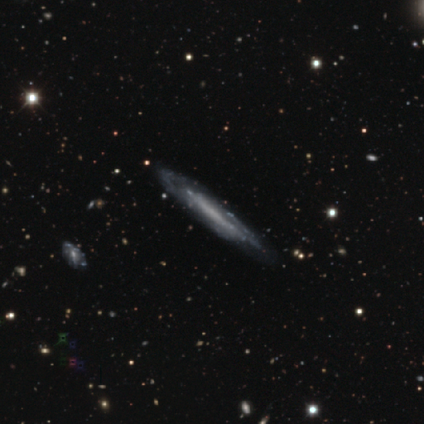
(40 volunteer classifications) Q: Smooth or featured?
A: featured or disk (72%); runner-up: star or artifact (18%)
Q: Edge-on disk?
A: yes (52%); runner-up: no (48%)
Q: Edge-on bulge?
A: none (80%); runner-up: boxy (13%)
Q: Merging?
A: none (70%); runner-up: major disturbance (15%)